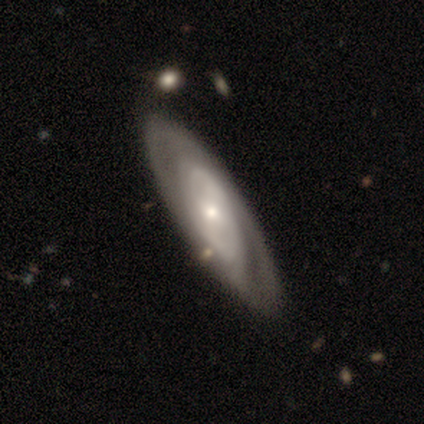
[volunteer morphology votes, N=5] smooth-or-featured: star or artifact: 60% | featured or disk: 40% | smooth: 0%